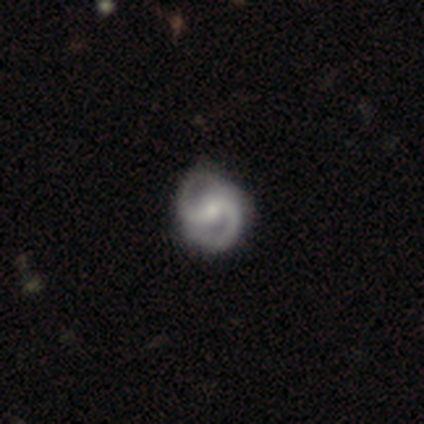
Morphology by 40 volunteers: featured or disk 88%, smooth 10%, star or artifact 2%. Down the decision tree: edge-on disk — no (100%); bar — weak (60%); spiral arms — yes (86%); spiral arm count — 2 (93%); spiral winding — tight (47%, tied with medium); bulge size — small (54%); merging — none (77%).